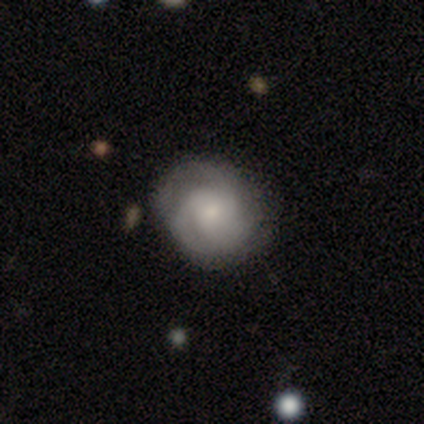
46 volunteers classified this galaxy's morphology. A featured or disk galaxy (61%) with no bar (81%), 2 (42%) tight (54%) spiral arms (89%) and a small central bulge (44%). Merging: none (71%).